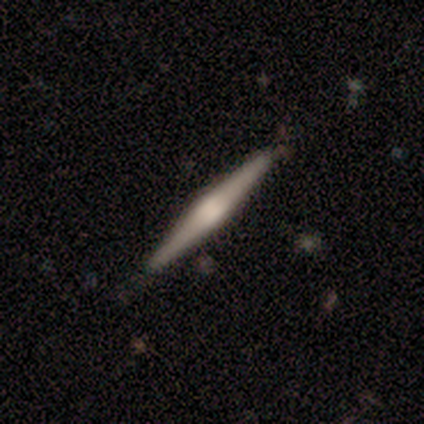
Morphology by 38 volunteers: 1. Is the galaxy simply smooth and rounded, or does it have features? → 82% featured or disk, 16% smooth, 3% star or artifact.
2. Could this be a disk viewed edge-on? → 97% yes, 3% no.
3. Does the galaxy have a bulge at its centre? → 63% rounded, 30% boxy, 7% none.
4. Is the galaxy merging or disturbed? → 89% none, 8% minor disturbance, 3% major disturbance, 0% merger.